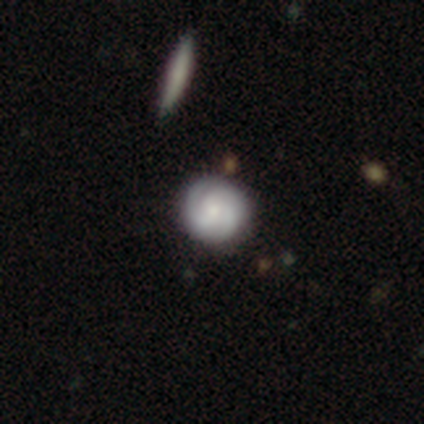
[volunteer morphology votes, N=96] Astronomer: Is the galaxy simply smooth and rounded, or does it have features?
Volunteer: featured or disk — 53% (runner-up: smooth, 38%).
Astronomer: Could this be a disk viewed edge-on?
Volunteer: no — 96%.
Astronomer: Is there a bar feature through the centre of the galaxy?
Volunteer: no — 80%.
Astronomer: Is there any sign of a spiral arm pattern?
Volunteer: yes — 92%.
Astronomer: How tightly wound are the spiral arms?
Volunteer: tight — 71%.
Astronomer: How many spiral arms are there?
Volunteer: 2 — 38%, tied with 3 at 38%.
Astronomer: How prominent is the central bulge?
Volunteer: small — 55% (runner-up: moderate, 33%).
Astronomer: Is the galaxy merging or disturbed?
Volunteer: none — 87%.